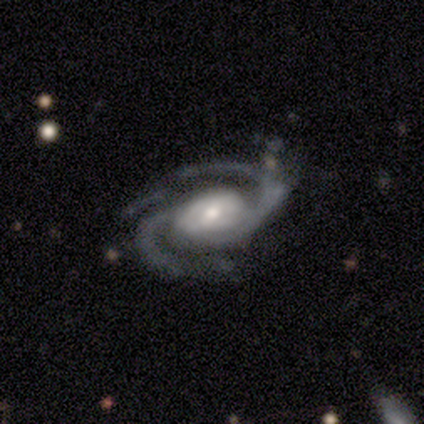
Volunteers were most divided on "spiral winding" (2-way tie): tight: 43%, medium: 43%, loose: 14%. Remaining: smooth or featured — featured or disk (100%); spiral arms — yes (100%); spiral arm count — 2 (100%); edge-on disk — no (88%); merging — none (75%); bar — weak (71%); bulge size — moderate (43%).